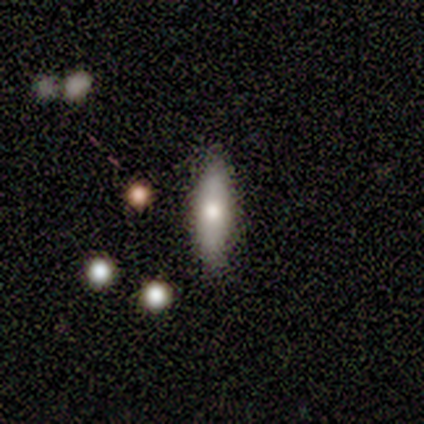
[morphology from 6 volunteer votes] smooth 50%, star or artifact 33%, featured or disk 17%. Down the decision tree: how rounded — cigar-shaped (67%); merging — none (75%).